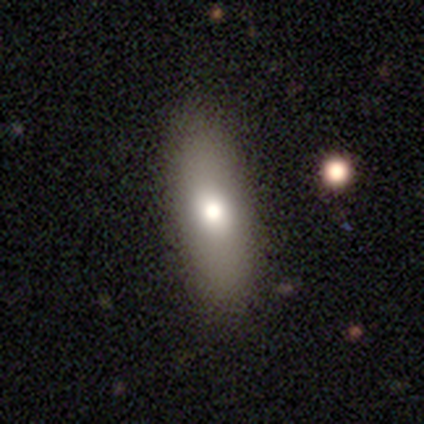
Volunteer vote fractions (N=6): Volunteers were most divided on "how rounded": in between: 60%, round: 20%, cigar-shaped: 20%. More confident: merging — none (100%); smooth or featured — smooth (83%).